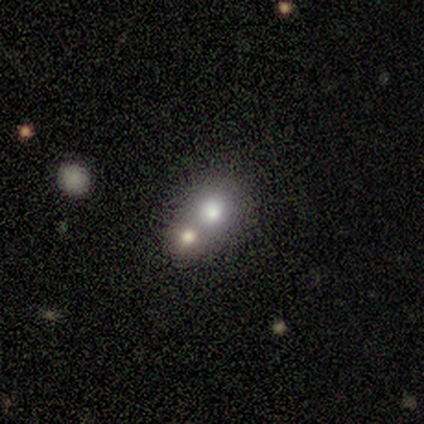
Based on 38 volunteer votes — Smooth or featured? 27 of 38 (71%) said smooth. How rounded? 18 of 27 (67%) said round. Merging? 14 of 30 (47%, tied with merger) said none.